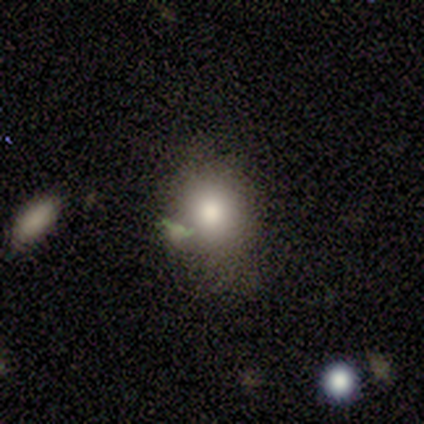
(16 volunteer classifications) smooth 81%, featured or disk 19%, star or artifact 0%. Down the decision tree: how rounded — round (54%); merging — none (56%).